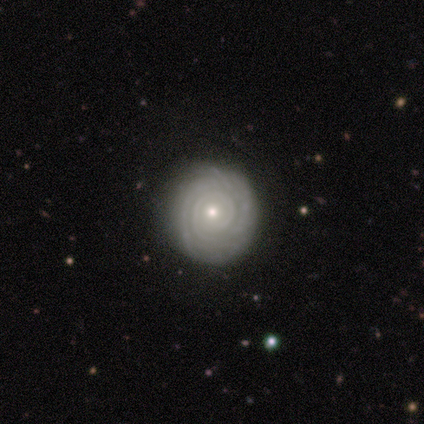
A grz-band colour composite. It shows a featured or disk galaxy (80%) with no bar (100%), tight (100%) spiral arms (100%) and a small central bulge (75%). Merging: none (75%).